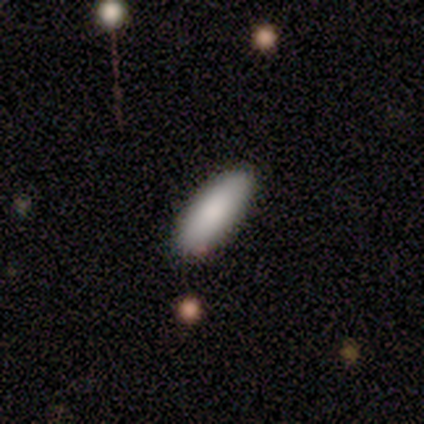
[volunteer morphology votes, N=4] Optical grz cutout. It shows a smooth galaxy with no disk features (100%) that is in between round and cigar-shaped (50%, tied with cigar-shaped). Merging: none (100%).